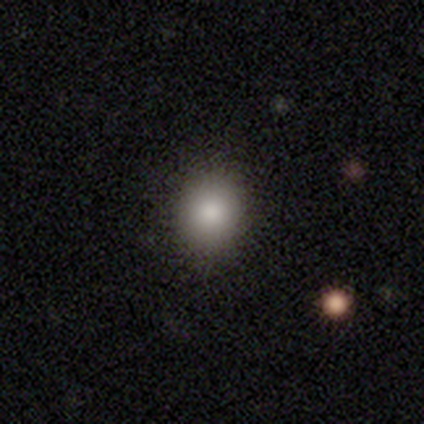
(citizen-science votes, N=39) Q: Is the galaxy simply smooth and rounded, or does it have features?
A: smooth — 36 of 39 (92%).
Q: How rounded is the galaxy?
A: round — 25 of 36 (69%).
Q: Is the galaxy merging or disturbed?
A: none — 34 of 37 (92%).